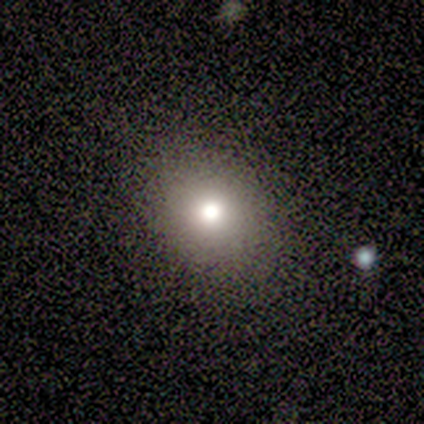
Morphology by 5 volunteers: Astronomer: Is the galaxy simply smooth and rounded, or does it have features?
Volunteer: smooth — 80%.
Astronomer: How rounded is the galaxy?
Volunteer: round — 100%.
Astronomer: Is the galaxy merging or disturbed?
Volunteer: none — 100%.